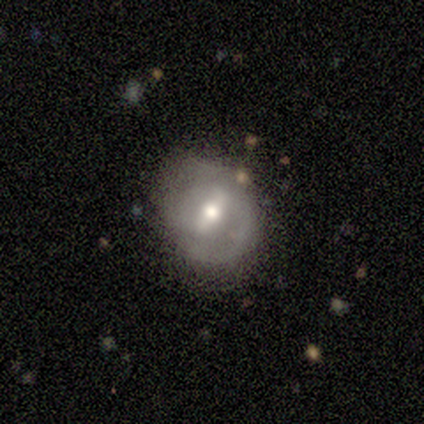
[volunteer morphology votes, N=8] Smooth or featured?
  - featured or disk: 50% *
  - smooth: 25%
  - star or artifact: 25%
Edge-on disk?
  - no: 100% *
  - yes: 0%
Bar?
  - weak: 75% *
  - strong: 25%
  - no: 0%
Spiral arms?
  - yes: 75% *
  - no: 25%
Spiral winding?
  - medium: 67% *
  - tight: 33%
  - loose: 0%
Spiral arm count?
  - 2: 67% *
  - can't tell: 33%
  - 1: 0%
  - 3: 0%
  - 4: 0%
  - more than 4: 0%
Bulge size?
  - small: 50% *
  - large: 25%
  - moderate: 25%
  - dominant: 0%
  - none: 0%
Merging?
  - none: 50% *
  - minor disturbance: 33%
  - merger: 17%
  - major disturbance: 0%